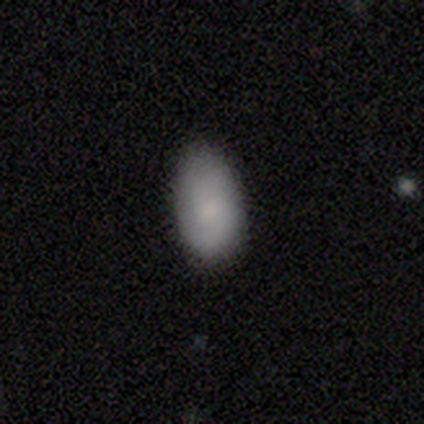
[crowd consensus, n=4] Morphology: type=smooth (75%); roundness=in between (100%); merging=none (75%).